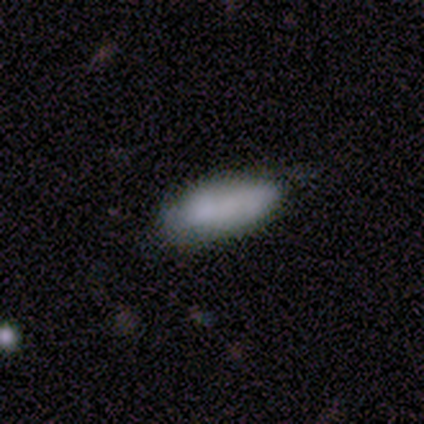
This appears to be a smooth galaxy with no disk features (80%) that is cigar-shaped (75%). Merging: none (40%).